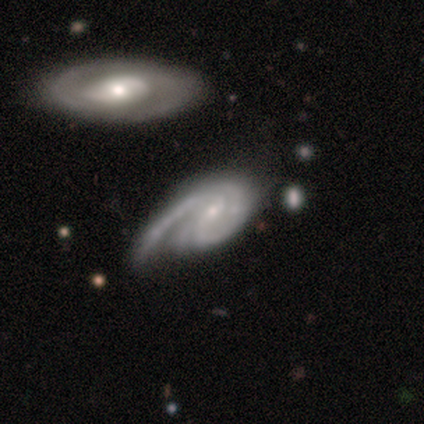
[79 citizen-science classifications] Volunteers were most divided on "bar": weak: 49%, no: 47%, strong: 4%. Remaining: spiral arms — yes (100%); edge-on disk — no (96%); smooth or featured — featured or disk (92%); bulge size — small (76%); spiral winding — tight (44%); spiral arm count — 2 (40%); merging — none (24%).